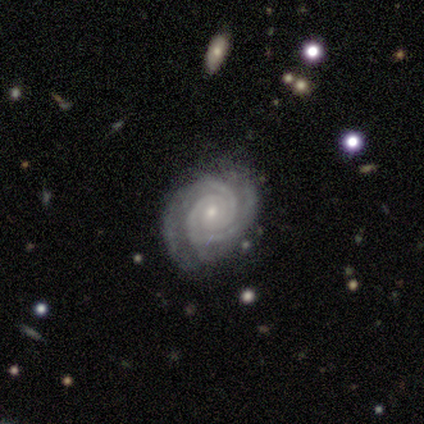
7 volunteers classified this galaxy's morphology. featured or disk 100%, smooth 0%, star or artifact 0%. Down the decision tree: edge-on disk — no (100%); bar — no (100%); spiral arms — yes (100%); spiral arm count — 2 (43%, tied with 3); spiral winding — tight (100%); bulge size — small (100%); merging — none (100%).